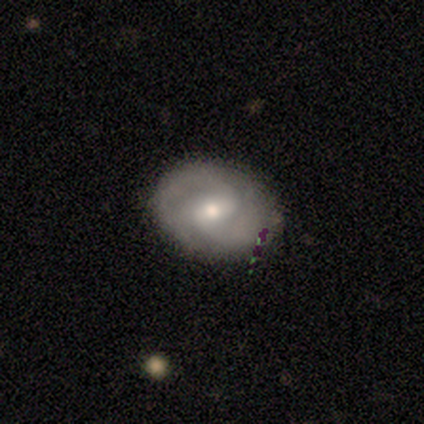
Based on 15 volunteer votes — smooth_or_featured: featured or disk (p=0.67) [alt: smooth p=0.20]
disk_edge_on: no (p=1.00)
bar: weak (p=0.80) [alt: strong p=0.10]
has_spiral_arms: yes (p=1.00)
spiral_winding: tight (p=0.60) [alt: medium p=0.30]
spiral_arm_count: 2 (p=0.70) [alt: can't tell p=0.20]
bulge_size: moderate (p=0.80) [alt: large p=0.10]
merging: none (p=0.92) [alt: minor disturbance p=0.08]